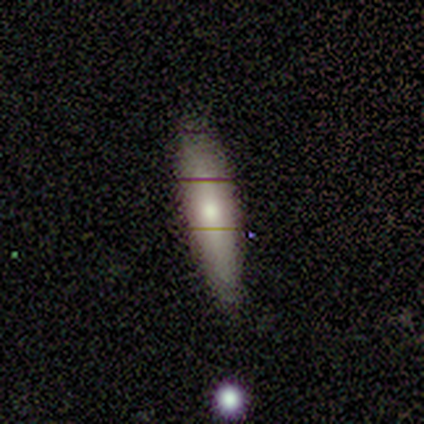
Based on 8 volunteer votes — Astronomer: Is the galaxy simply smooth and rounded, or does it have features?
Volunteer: smooth — 50%, tied with featured or disk at 50%.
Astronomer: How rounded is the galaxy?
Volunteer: cigar-shaped — 75%.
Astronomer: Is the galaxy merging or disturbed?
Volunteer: none — 88%.